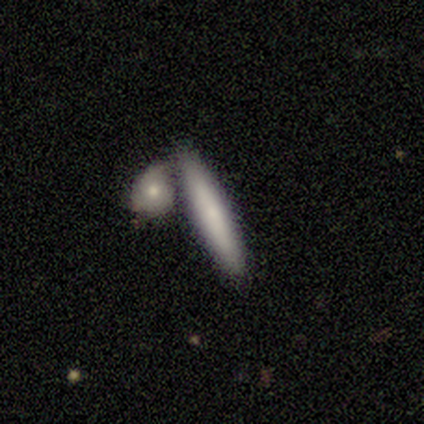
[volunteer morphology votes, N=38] Smooth or featured? 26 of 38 (68%) said smooth. How rounded? 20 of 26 (77%) said cigar-shaped. Merging? 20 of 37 (54%) said none.